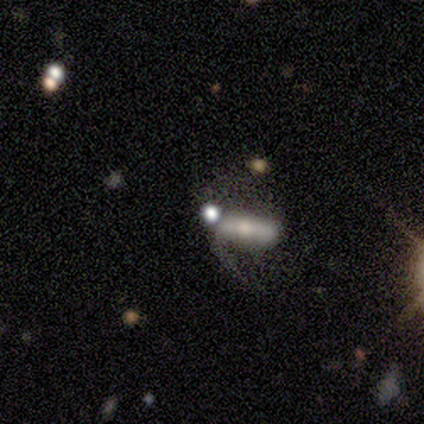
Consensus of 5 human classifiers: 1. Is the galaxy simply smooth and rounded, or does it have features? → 40% featured or disk (tied), 40% star or artifact (tied), 20% smooth.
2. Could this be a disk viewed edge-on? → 50% yes (tied), 50% no (tied).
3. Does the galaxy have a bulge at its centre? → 100% rounded, 0% boxy, 0% none.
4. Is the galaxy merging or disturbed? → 33% minor disturbance (tied), 33% major disturbance (tied), 33% merger (tied), 0% none.